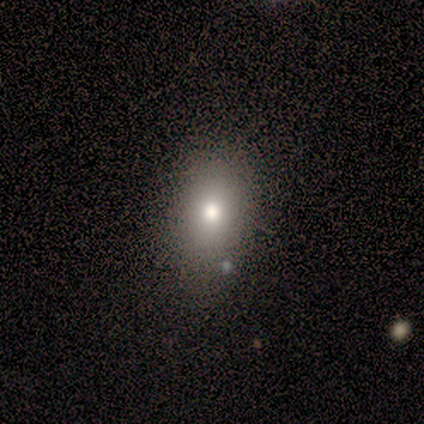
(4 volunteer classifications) Overall: featured or disk (50%; smooth 25%). Edge-on disk: no (100%). Bar: no (100%). Spiral arms: no (100%). Bulge size: moderate (100%). Merging: none (67%; merger 33%).